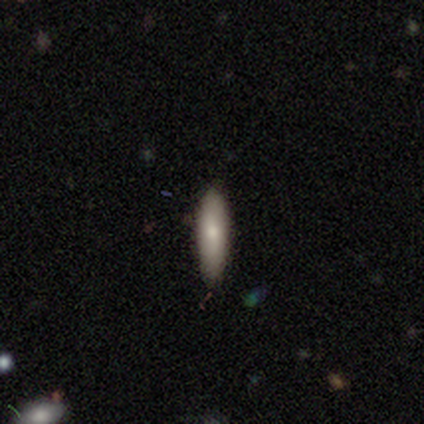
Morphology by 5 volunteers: Q: Smooth or featured?
A: smooth (80%); runner-up: featured or disk (20%)
Q: How rounded?
A: in between (50%); tied with: cigar-shaped (50%)
Q: Merging?
A: none (80%); runner-up: major disturbance (20%)